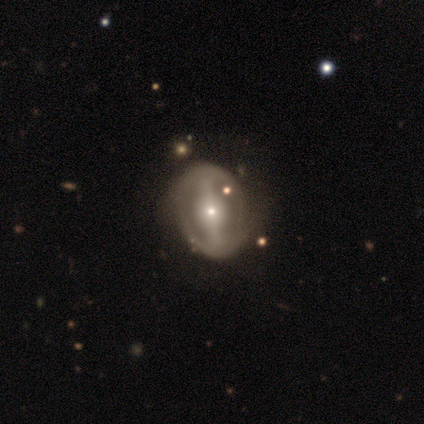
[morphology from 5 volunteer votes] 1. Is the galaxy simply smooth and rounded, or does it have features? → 100% featured or disk, 0% smooth, 0% star or artifact.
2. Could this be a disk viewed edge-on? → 100% no, 0% yes.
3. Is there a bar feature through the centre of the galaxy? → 100% strong, 0% weak, 0% no.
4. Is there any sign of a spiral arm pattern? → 80% yes, 20% no.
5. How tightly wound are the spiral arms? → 100% medium, 0% tight, 0% loose.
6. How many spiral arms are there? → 50% 2, 25% 3, 25% 4, 0% 1, 0% more than 4, 0% can't tell.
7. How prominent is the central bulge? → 40% moderate (tied), 40% small (tied), 20% large, 0% dominant, 0% none.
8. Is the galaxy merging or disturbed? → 40% none (tied), 40% minor disturbance (tied), 20% major disturbance, 0% merger.